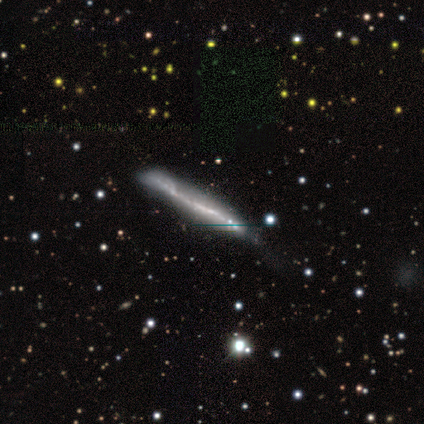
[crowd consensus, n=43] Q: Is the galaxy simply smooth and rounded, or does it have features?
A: featured or disk — 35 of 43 (81%).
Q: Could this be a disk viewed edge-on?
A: yes — 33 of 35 (94%).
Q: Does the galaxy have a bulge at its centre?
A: none — 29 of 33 (88%).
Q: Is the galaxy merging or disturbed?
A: none — 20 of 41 (49%).